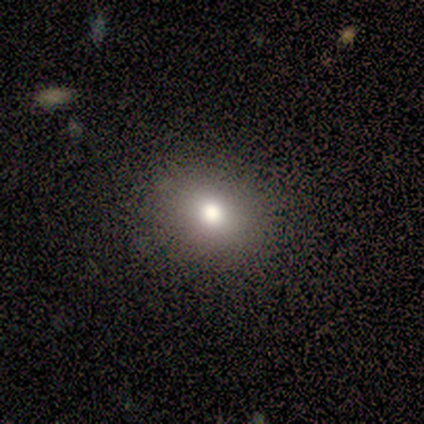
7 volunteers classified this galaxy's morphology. A smooth galaxy with no disk features (86%) that is round (67%).

Vote fractions:
- Smooth or featured? smooth: 86% / star or artifact: 14% / featured or disk: 0%
- How rounded? round: 67% / in between: 33% / cigar-shaped: 0%
- Merging? none: 83% / minor disturbance: 17% / major disturbance: 0% / merger: 0%